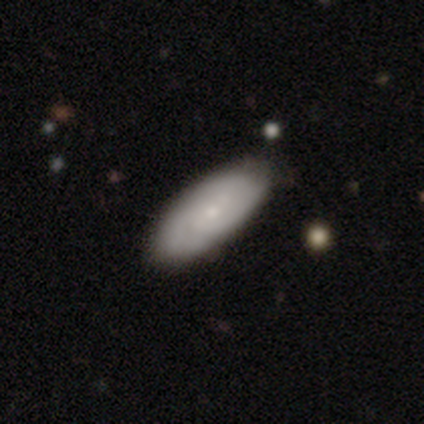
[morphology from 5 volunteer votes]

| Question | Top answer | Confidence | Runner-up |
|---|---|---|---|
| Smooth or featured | featured or disk | 60% | smooth (40%) |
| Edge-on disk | no | 67% | yes (33%) |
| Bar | weak | 50% | tied: no (50%) |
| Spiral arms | yes | 100% | — |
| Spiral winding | tight | 50% | tied: medium (50%) |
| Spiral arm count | can't tell | 100% | — |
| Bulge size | moderate | 50% | tied: small (50%) |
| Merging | major disturbance | 60% | none (40%) |